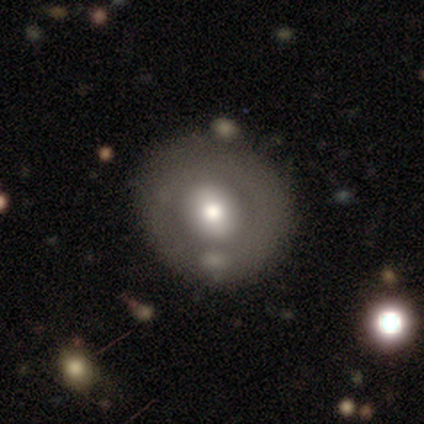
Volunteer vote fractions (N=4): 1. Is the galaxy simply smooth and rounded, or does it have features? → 50% smooth, 25% featured or disk, 25% star or artifact.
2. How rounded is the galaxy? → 100% round, 0% in between, 0% cigar-shaped.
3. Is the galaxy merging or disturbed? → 100% none, 0% minor disturbance, 0% major disturbance, 0% merger.